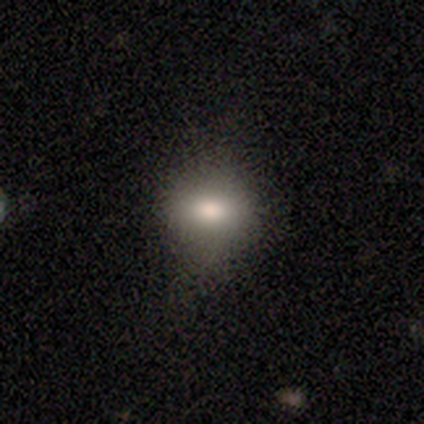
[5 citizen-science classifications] This is likely a smooth galaxy (60%). How rounded: likely in between (67%). Merging: possibly none (50%, tied with minor disturbance).